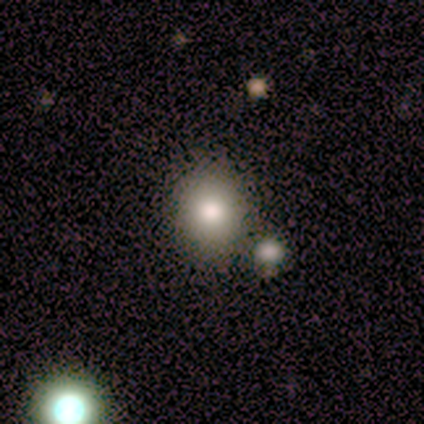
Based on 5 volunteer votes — smooth_or_featured: smooth (p=1.00)
how_rounded: round (p=0.80) [alt: in between p=0.20]
merging: none (p=1.00)